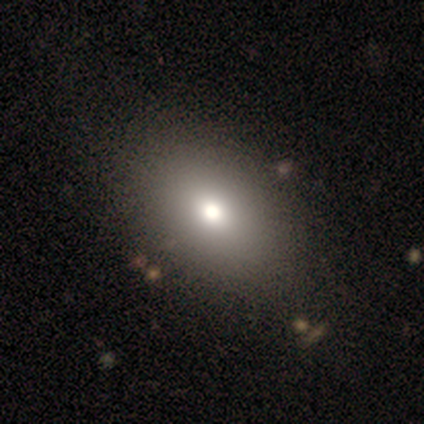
Smooth or featured?
  - smooth: 84% *
  - featured or disk: 11%
  - star or artifact: 5%
How rounded?
  - in between: 84% *
  - round: 16%
  - cigar-shaped: 0%
Merging?
  - none: 83% *
  - minor disturbance: 3%
  - major disturbance: 0%
  - merger: 0%